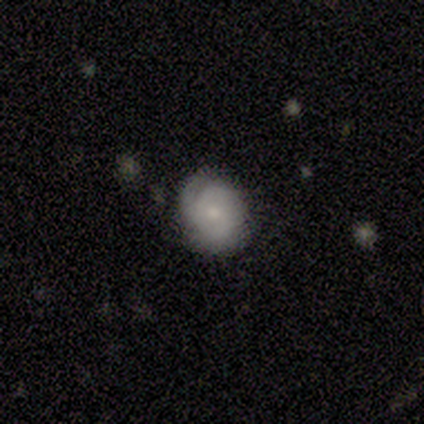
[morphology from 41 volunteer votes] smooth_or_featured: featured or disk (p=0.71) [alt: smooth p=0.27]
disk_edge_on: no (p=1.00)
bar: no (p=0.79) [alt: weak p=0.21]
has_spiral_arms: yes (p=0.86) [alt: no p=0.14]
spiral_winding: tight (p=0.56) [alt: medium p=0.32]
spiral_arm_count: 3 (p=0.32) [alt: 1 p=0.28]
bulge_size: small (p=0.72) [alt: moderate p=0.28]
merging: none (p=0.70) [alt: minor disturbance p=0.23]